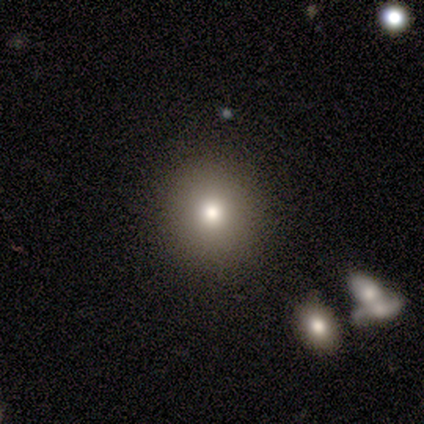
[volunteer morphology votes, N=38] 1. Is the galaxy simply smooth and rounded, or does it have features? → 68% smooth, 21% star or artifact, 11% featured or disk.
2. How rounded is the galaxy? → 88% round, 12% in between, 0% cigar-shaped.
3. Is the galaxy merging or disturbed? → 87% none, 13% merger, 0% minor disturbance, 0% major disturbance.